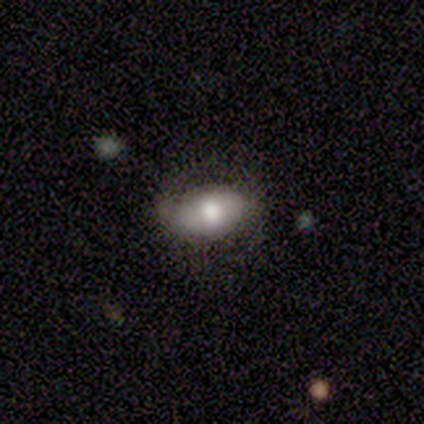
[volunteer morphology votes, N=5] This appears to be a smooth galaxy with no disk features (60%) that is in between round and cigar-shaped (100%). Merging: none (80%).